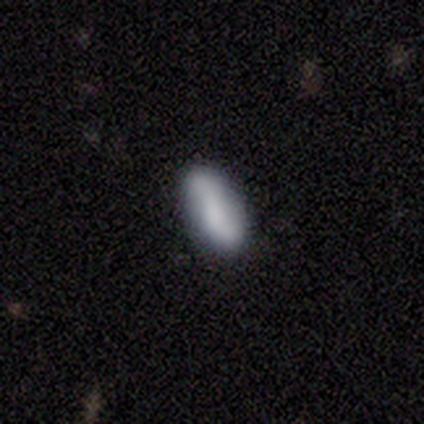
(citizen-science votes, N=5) Smooth or featured?
  - smooth: 80% *
  - star or artifact: 20%
  - featured or disk: 0%
How rounded?
  - in between: 75% *
  - cigar-shaped: 25%
  - round: 0%
Merging?
  - none: 75% *
  - minor disturbance: 25%
  - major disturbance: 0%
  - merger: 0%